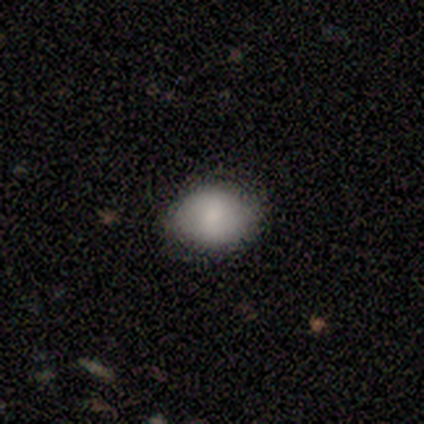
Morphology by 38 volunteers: This is clearly a smooth galaxy (84%). How rounded: likely in between (62%). Merging: clearly none (92%).